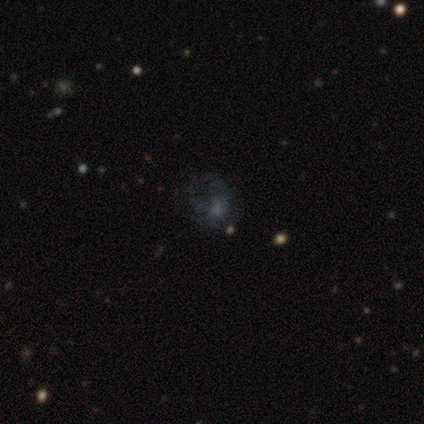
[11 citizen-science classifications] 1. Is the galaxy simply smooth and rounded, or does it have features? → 36% smooth (tied), 36% featured or disk (tied), 27% star or artifact.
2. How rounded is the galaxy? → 75% in between, 25% round, 0% cigar-shaped.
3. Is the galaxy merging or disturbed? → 38% none, 25% minor disturbance, 25% major disturbance, 12% merger.